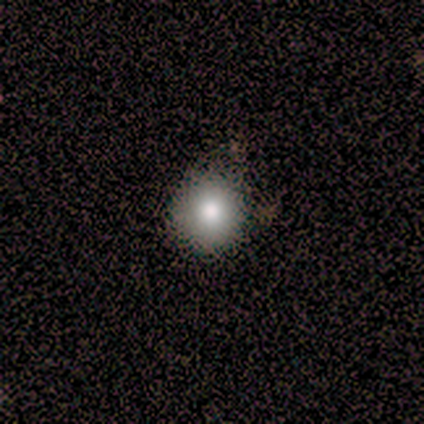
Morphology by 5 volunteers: Overall: smooth (100%). How rounded: round (80%). Merging: none (80%).